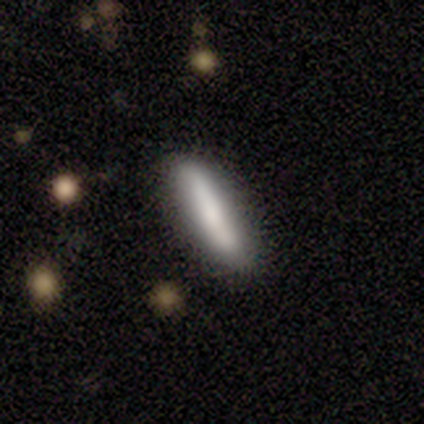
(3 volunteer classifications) Smooth or featured? 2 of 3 (67%) said smooth. How rounded? 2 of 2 (100%) said cigar-shaped. Merging? 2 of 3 (67%) said none.